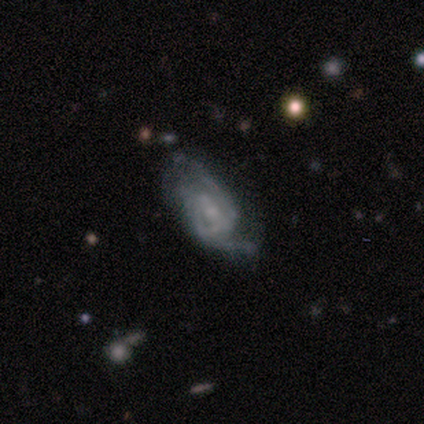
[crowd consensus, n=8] Q: Smooth or featured?
A: featured or disk (62%); runner-up: smooth (38%)
Q: Edge-on disk?
A: no (100%)
Q: Bar?
A: no (100%)
Q: Spiral arms?
A: yes (80%); runner-up: no (20%)
Q: Spiral winding?
A: medium (50%); tied with: loose (50%)
Q: Spiral arm count?
A: 2 (50%); tied with: can't tell (50%)
Q: Bulge size?
A: small (60%); runner-up: moderate (20%)
Q: Merging?
A: major disturbance (62%); runner-up: none (25%)